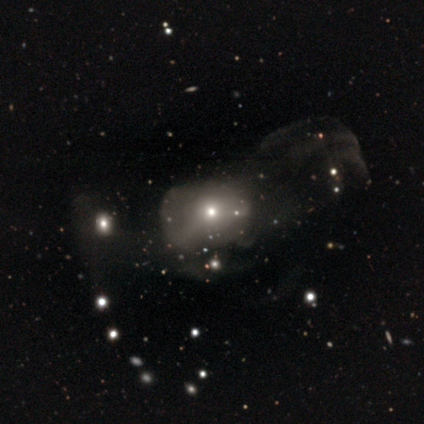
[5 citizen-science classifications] This is likely a smooth galaxy (60%). How rounded: likely round (67%). Merging: possibly major disturbance (50%).